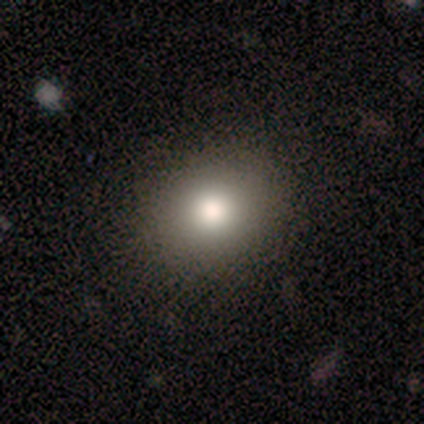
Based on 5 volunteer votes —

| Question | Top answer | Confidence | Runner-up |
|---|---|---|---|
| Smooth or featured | smooth | 100% | — |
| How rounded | in between | 60% | round (40%) |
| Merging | none | 100% | — |